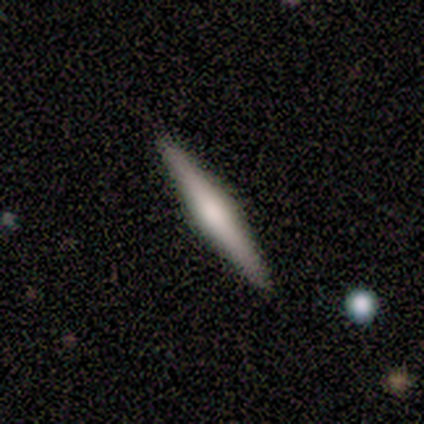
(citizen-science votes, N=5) smooth 40% (tied), featured or disk 40% (tied), star or artifact 20%. Down the decision tree: how rounded — cigar-shaped (100%); merging — none (100%).